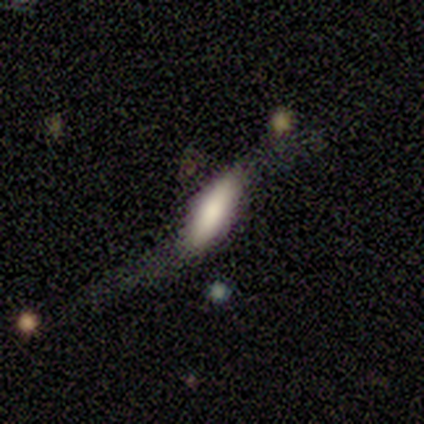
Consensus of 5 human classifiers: This is likely a featured or disk galaxy (60%). It is clearly not viewed edge-on (100%). Bar: likely strong (67%). Spiral arm pattern: clearly yes (100%). Spiral arm count: clearly 2 (100%). Spiral winding: clearly loose (100%). Central bulge: marginally dominant (33%, tied with large and none). Merging: marginally none (40%, tied with minor disturbance).